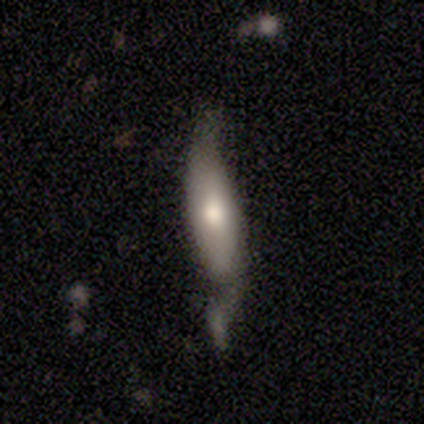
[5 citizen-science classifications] Smooth or featured? smooth (100%)
How rounded? in between (80%)
Merging? minor disturbance (80%)